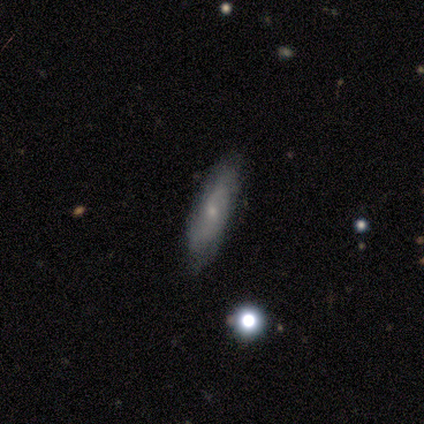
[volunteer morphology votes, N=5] type=featured or disk (60%); edge-on=no (100%); bar=no (67%); spiral arms=yes (67%); winding=medium (50%, tied with loose); arm count=2 (100%); bulge=small (67%); merging=none (80%).